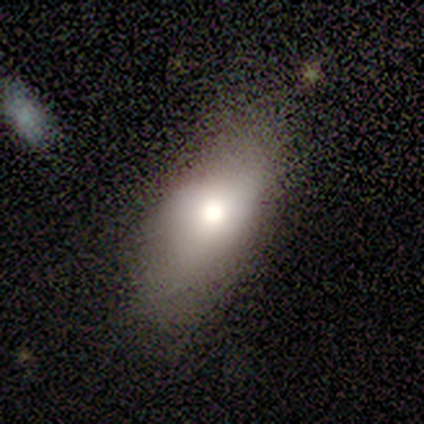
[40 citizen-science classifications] Volunteers were most divided on "merging": none: 59%, major disturbance: 22%, minor disturbance: 19%, merger: 0%. More confident: how rounded — in between (94%); smooth or featured — smooth (78%).